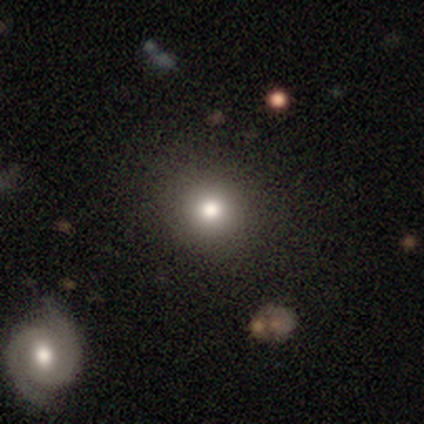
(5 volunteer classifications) smooth_or_featured: smooth (p=0.60) [alt: star or artifact p=0.40]
how_rounded: round (p=1.00)
merging: none (p=1.00)